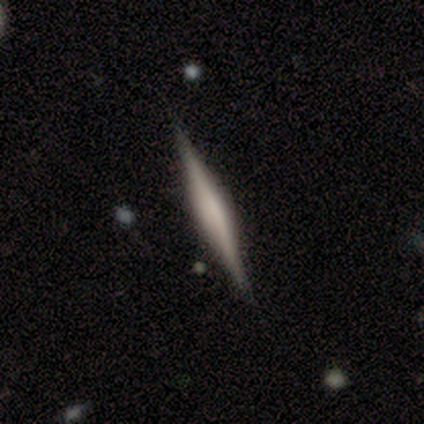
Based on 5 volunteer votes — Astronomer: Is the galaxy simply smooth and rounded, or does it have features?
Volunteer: featured or disk — 60% (runner-up: smooth, 40%).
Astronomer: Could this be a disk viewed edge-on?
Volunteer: yes — 100%.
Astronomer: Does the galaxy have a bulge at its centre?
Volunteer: rounded — 100%.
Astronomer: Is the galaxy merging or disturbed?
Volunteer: none — 100%.